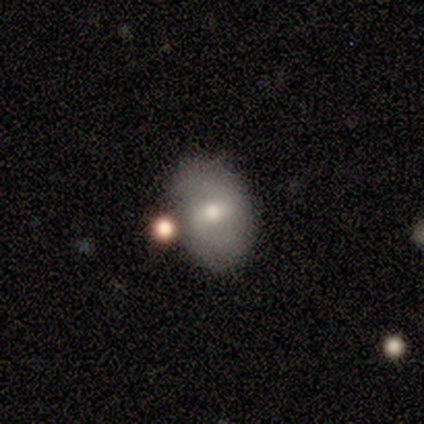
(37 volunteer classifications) Smooth or featured: smooth — 46% (featured or disk — 43%)
How rounded: in between — 76% (round — 24%)
Merging: none — 70% (merger — 15%)